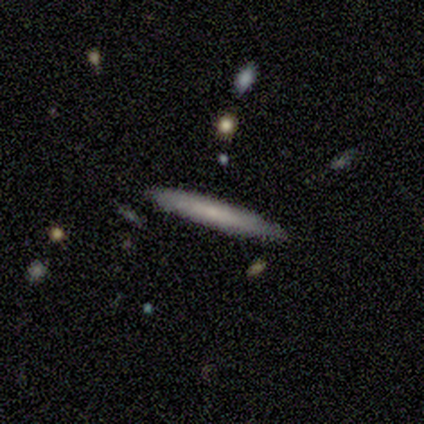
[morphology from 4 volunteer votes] Smooth or featured?
  - smooth: 50% * (tied)
  - featured or disk: 50% * (tied)
  - star or artifact: 0%
How rounded?
  - cigar-shaped: 100% *
  - round: 0%
  - in between: 0%
Merging?
  - none: 100% *
  - minor disturbance: 0%
  - major disturbance: 0%
  - merger: 0%